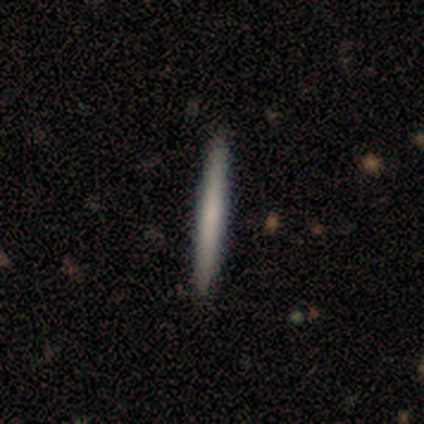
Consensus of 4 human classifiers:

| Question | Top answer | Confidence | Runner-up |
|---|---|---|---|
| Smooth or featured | smooth | 75% | featured or disk (25%) |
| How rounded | cigar-shaped | 100% | — |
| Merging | none | 100% | — |